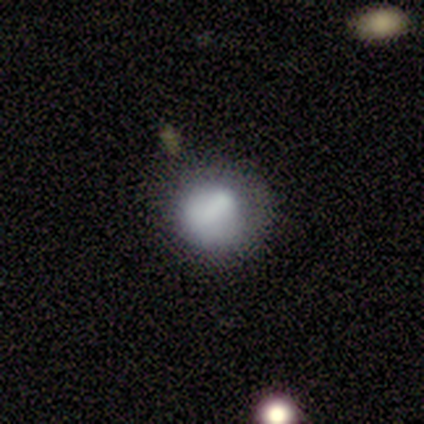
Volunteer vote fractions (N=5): smooth-or-featured: smooth: 100% | featured or disk: 0% | star or artifact: 0%
  how-rounded: round: 80% | in between: 20% | cigar-shaped: 0%
  merging: none: 60% | minor disturbance: 20% | major disturbance: 20% | merger: 0%